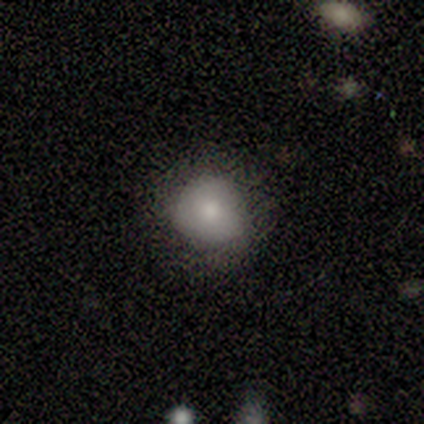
smooth_or_featured: smooth (p=0.50) [alt: featured or disk p=0.25]
how_rounded: round (p=0.50) [tied with: in between p=0.50]
merging: none (p=1.00)